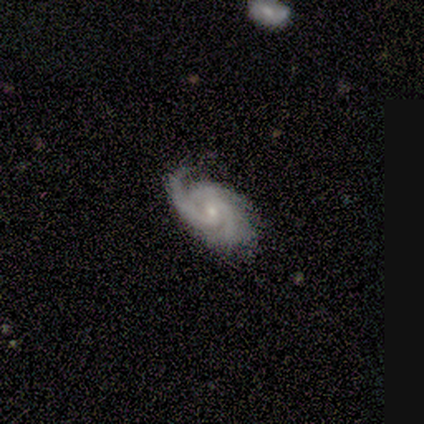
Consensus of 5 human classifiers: Morphology: type=featured or disk (100%); edge-on=no (100%); bar=no (80%); spiral arms=yes (100%); winding=tight (80%); arm count=2 (40%); bulge=small (60%); merging=none (80%).